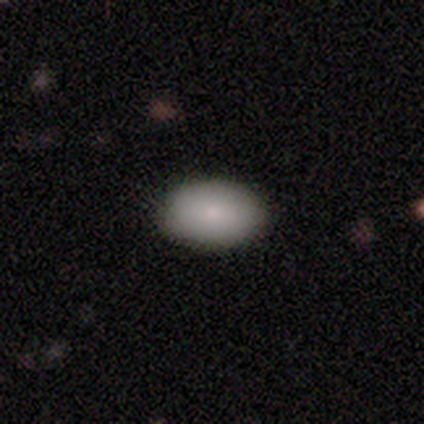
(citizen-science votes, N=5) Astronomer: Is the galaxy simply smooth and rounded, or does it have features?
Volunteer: smooth — 80%.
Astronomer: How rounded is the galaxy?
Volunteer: in between — 100%.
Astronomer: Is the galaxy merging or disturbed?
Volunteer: none — 100%.